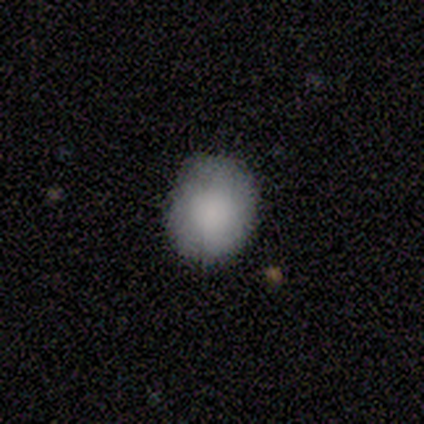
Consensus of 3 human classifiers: Volunteers were most divided on "how rounded" (2-way tie): round: 50%, in between: 50%, cigar-shaped: 0%. More confident: merging — none (100%); smooth or featured — smooth (67%).